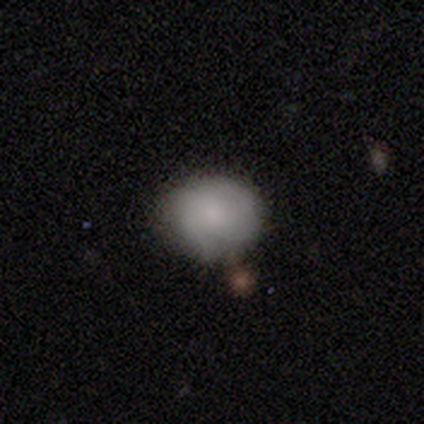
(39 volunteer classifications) smooth_or_featured: smooth (p=0.59) [alt: featured or disk p=0.31]
how_rounded: round (p=0.65) [alt: in between p=0.35]
merging: none (p=0.57) [alt: minor disturbance p=0.26]